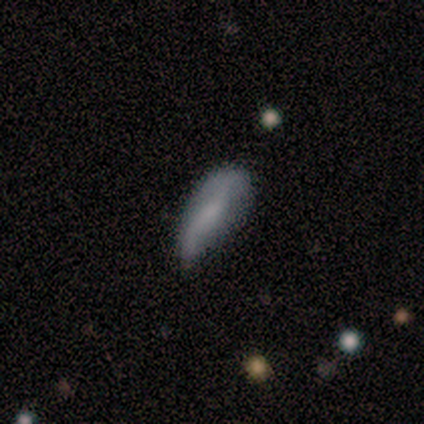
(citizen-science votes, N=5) This is likely a smooth galaxy (60%). How rounded: likely in between (67%). Merging: likely minor disturbance (75%).